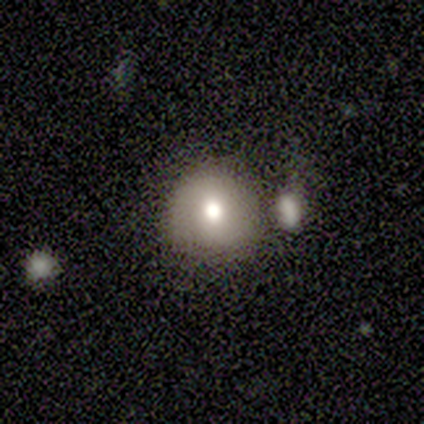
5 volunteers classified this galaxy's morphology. Overall: smooth (80%). How rounded: round (100%). Merging: none (75%).